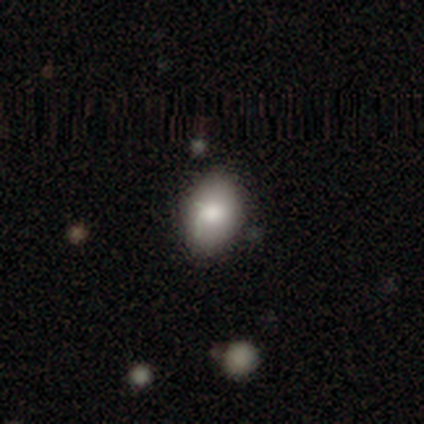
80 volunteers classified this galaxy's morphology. Smooth or featured: smooth — 82% (featured or disk — 10%)
How rounded: in between — 79% (round — 21%)
Merging: none — 32% (minor disturbance — 16%)